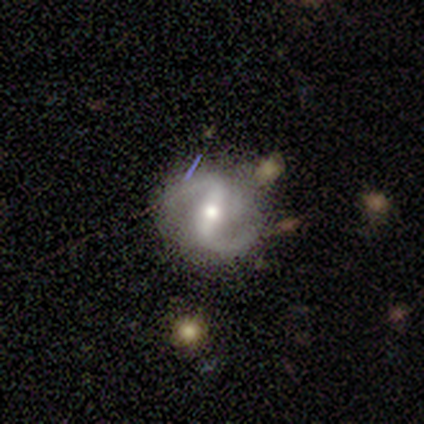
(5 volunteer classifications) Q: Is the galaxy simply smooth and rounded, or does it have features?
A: featured or disk — 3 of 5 (60%).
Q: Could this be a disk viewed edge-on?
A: no — 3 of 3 (100%).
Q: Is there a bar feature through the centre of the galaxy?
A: strong — 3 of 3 (100%).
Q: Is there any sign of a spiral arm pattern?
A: yes — 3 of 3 (100%).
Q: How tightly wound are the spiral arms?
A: medium — 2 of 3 (67%).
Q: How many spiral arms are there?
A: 2 — 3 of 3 (100%).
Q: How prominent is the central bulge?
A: moderate — 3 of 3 (100%).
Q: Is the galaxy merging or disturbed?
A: none — 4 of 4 (100%).